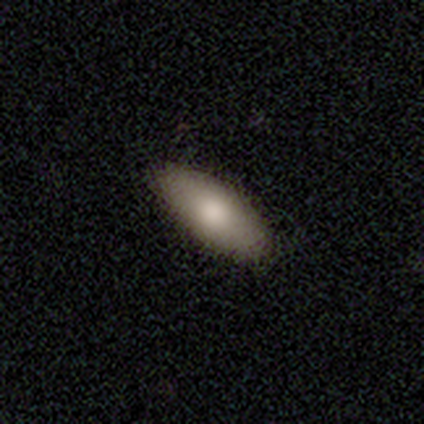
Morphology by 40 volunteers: This appears to be a smooth galaxy with no disk features (82%) that is in between round and cigar-shaped (79%). Merging: none (62%).